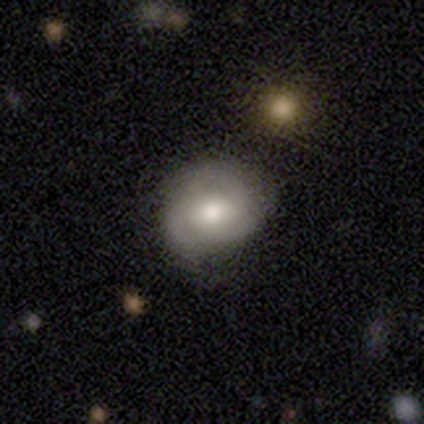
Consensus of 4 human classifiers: A smooth galaxy with no disk features (75%) that is in between round and cigar-shaped (67%). Merging: minor disturbance (50%).